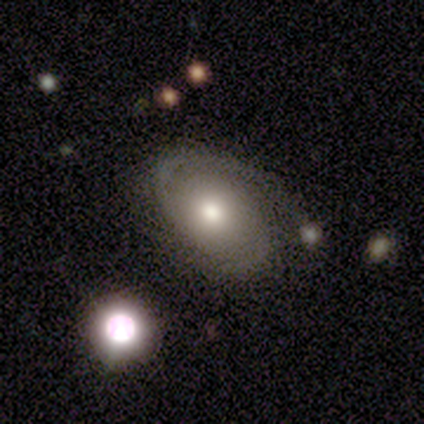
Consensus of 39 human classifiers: Q: Smooth or featured?
A: featured or disk (85%); runner-up: smooth (15%)
Q: Edge-on disk?
A: no (100%)
Q: Bar?
A: no (67%); runner-up: weak (27%)
Q: Spiral arms?
A: yes (91%); runner-up: no (9%)
Q: Spiral winding?
A: tight (57%); runner-up: medium (43%)
Q: Spiral arm count?
A: 2 (70%); runner-up: 1 (13%)
Q: Bulge size?
A: moderate (61%); runner-up: large (18%)
Q: Merging?
A: none (59%); runner-up: minor disturbance (21%)